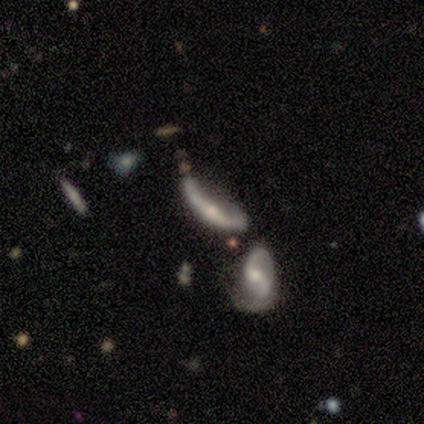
This is clearly a featured or disk galaxy (80%). It is likely not viewed edge-on (75%). Bar: likely no (67%). Spiral arm pattern: likely no (67%). Central bulge: likely moderate (67%). Merging: clearly merger (80%).